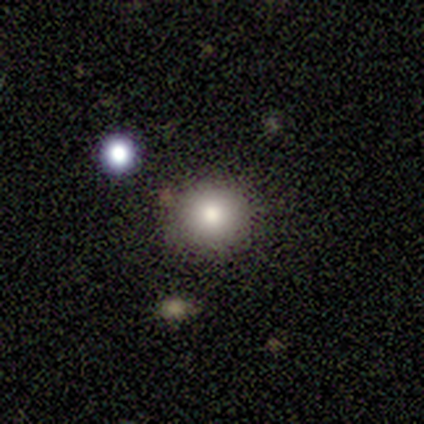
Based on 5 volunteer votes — Smooth or featured: smooth — 80% (star or artifact — 20%)
How rounded: round — 100%
Merging: none — 75% (merger — 25%)